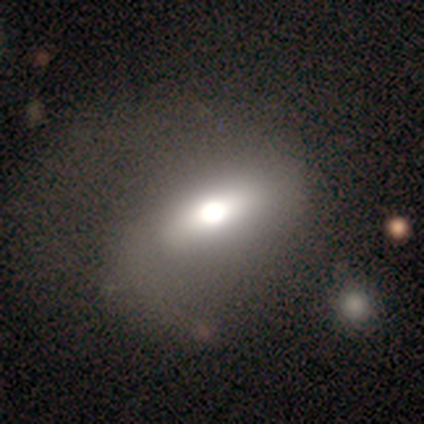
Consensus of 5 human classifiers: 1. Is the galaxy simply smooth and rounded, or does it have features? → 60% featured or disk, 20% smooth, 20% star or artifact.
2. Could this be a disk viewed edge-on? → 100% no, 0% yes.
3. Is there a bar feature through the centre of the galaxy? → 33% strong (tied), 33% weak (tied), 33% no (tied).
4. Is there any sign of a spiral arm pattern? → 67% no, 33% yes.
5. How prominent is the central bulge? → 33% dominant (tied), 33% large (tied), 33% moderate (tied), 0% small, 0% none.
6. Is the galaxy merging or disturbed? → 50% minor disturbance (tied), 50% major disturbance (tied), 0% none, 0% merger.